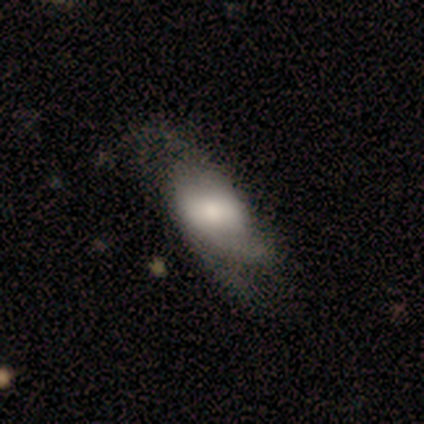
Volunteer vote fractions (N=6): Q: Smooth or featured?
A: featured or disk (50%); runner-up: smooth (33%)
Q: Edge-on disk?
A: no (100%)
Q: Bar?
A: no (67%); runner-up: weak (33%)
Q: Spiral arms?
A: yes (67%); runner-up: no (33%)
Q: Spiral winding?
A: medium (100%)
Q: Spiral arm count?
A: 1 (50%); tied with: 3 (50%)
Q: Bulge size?
A: large (67%); runner-up: moderate (33%)
Q: Merging?
A: none (40%); tied with: major disturbance (40%)